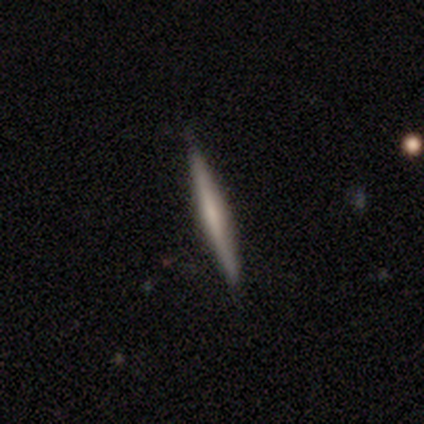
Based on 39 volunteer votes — This appears to be a featured or disk galaxy (62%) viewed edge-on (96%) with no central bulge (65%). Merging: none (92%).